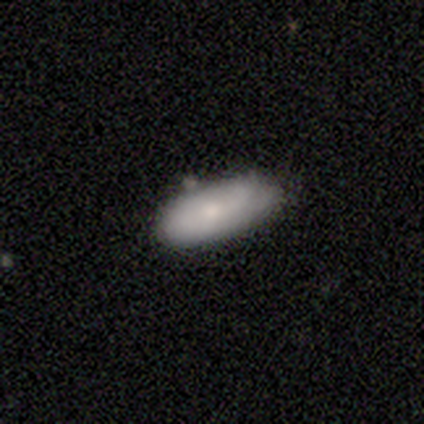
A smooth galaxy with no disk features (60%) that is in between round and cigar-shaped (100%). Merging: none (60%).